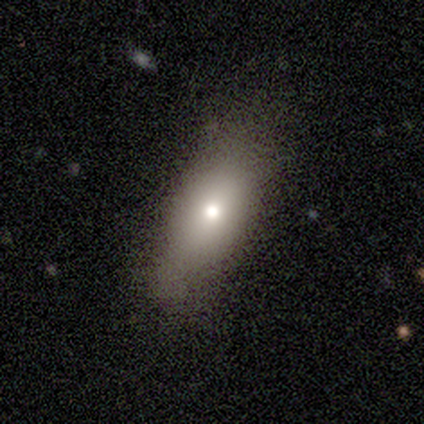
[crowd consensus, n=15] This is likely a smooth galaxy (67%). How rounded: clearly in between (100%). Merging: likely none (71%).